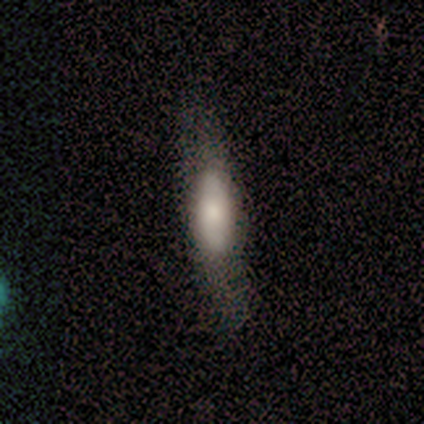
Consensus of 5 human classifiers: Overall: smooth (40%, tied with featured or disk). How rounded: in between (100%). Merging: none (75%).